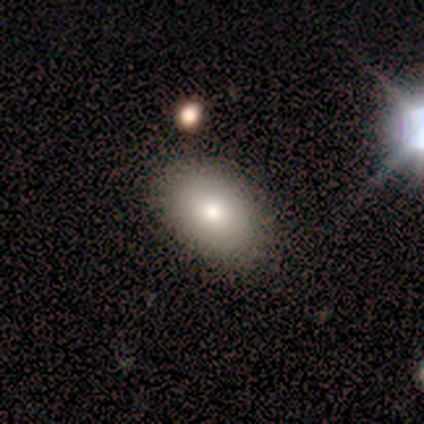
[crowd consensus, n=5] Smooth or featured: smooth — 100%
How rounded: in between — 60% (round — 40%)
Merging: none — 60% (minor disturbance — 40%)